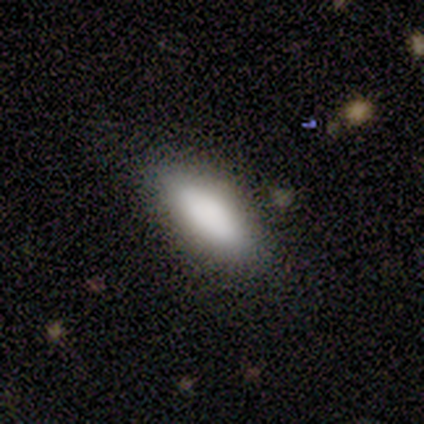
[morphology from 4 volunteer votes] A smooth galaxy with no disk features (75%) that is in between round and cigar-shaped (100%).

Vote fractions:
- Smooth or featured? smooth: 75% / star or artifact: 25% / featured or disk: 0%
- How rounded? in between: 100% / round: 0% / cigar-shaped: 0%
- Merging? none: 100% / minor disturbance: 0% / major disturbance: 0% / merger: 0%